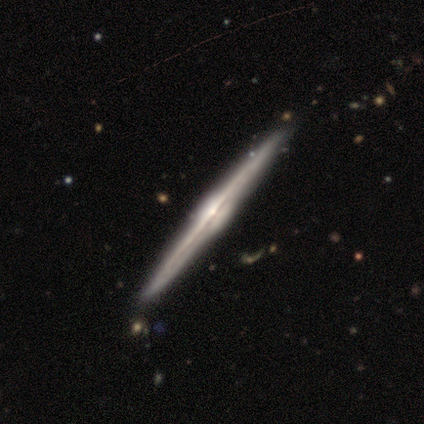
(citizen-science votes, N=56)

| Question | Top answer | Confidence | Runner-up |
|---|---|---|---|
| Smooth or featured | featured or disk | 93% | smooth (7%) |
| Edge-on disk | yes | 100% | — |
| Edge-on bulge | rounded | 81% | boxy (19%) |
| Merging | none | 93% | minor disturbance (4%) |